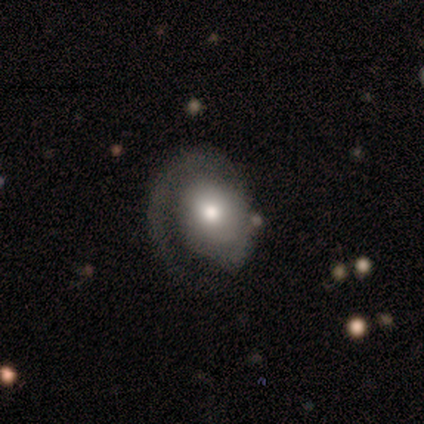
Smooth or featured: smooth — 60% (featured or disk — 40%)
How rounded: round — 67% (in between — 33%)
Merging: major disturbance — 60% (none — 40%)